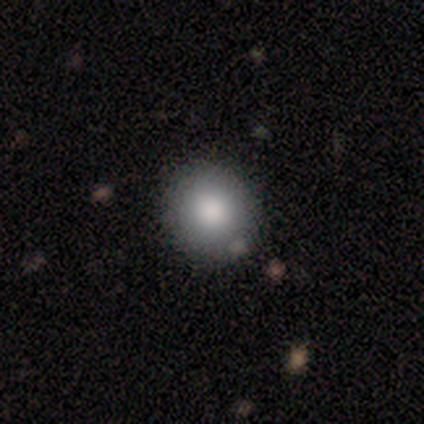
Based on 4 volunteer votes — Smooth or featured? smooth (75%)
How rounded? round (67%)
Merging? none (100%)